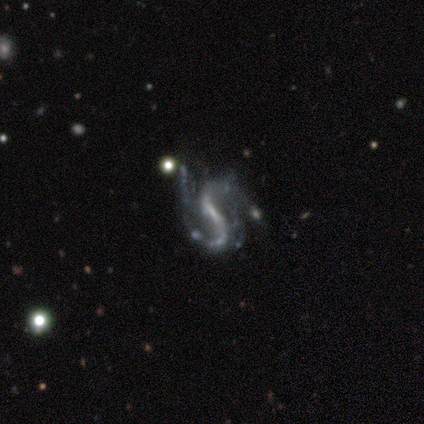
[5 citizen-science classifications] Smooth or featured? 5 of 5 (100%) said featured or disk. Edge-on disk? 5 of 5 (100%) said no. Bar? 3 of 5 (60%) said no. Spiral arms? 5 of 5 (100%) said yes. Spiral winding? 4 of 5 (80%) said loose. Spiral arm count? 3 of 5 (60%) said 2. Bulge size? 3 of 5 (60%) said none. Merging? 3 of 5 (60%) said none.